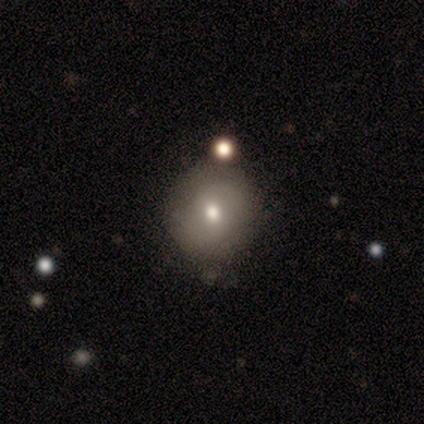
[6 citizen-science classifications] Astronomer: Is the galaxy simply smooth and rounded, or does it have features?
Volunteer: smooth — 83%.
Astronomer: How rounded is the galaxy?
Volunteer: round — 100%.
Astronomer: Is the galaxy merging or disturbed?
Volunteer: none — 83%.